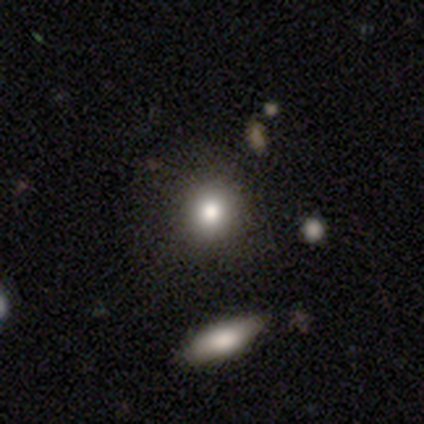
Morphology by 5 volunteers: type=smooth (100%); roundness=round (40%, tied with in between); merging=none (60%).